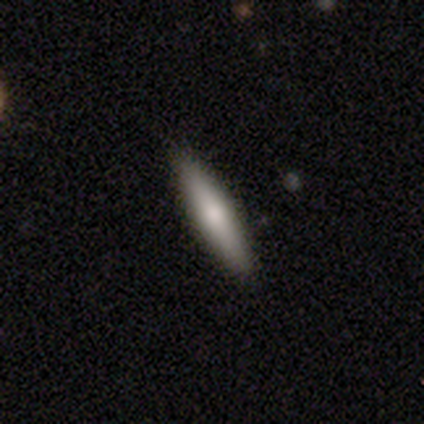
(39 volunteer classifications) smooth-or-featured: smooth: 67% | featured or disk: 28% | star or artifact: 5%
  how-rounded: cigar-shaped: 77% | in between: 19% | round: 4%
  merging: none: 89% | minor disturbance: 11% | major disturbance: 0% | merger: 0%